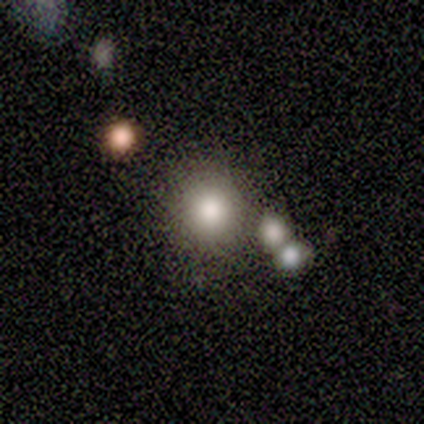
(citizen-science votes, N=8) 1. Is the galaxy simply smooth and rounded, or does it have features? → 75% smooth, 12% featured or disk, 12% star or artifact.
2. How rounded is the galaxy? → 100% round, 0% in between, 0% cigar-shaped.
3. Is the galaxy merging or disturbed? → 71% none, 14% major disturbance, 14% merger, 0% minor disturbance.